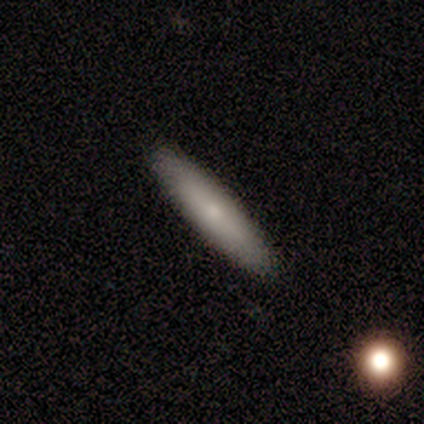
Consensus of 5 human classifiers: This is clearly a smooth galaxy (80%). How rounded: likely cigar-shaped (75%). Merging: clearly none (80%).